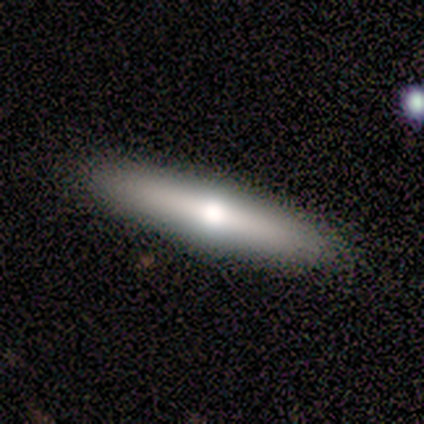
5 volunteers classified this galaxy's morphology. type=featured or disk (60%); edge-on=yes (100%); edge-on bulge=rounded (100%); merging=none (100%).